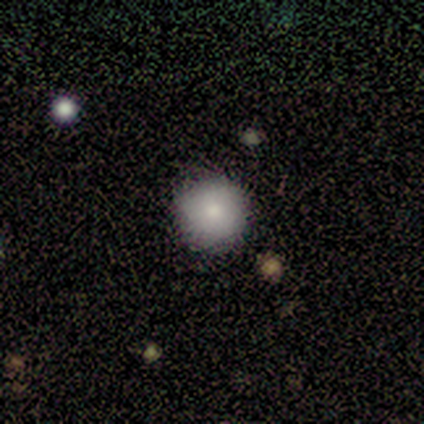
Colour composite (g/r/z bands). It shows a smooth galaxy with no disk features (75%) that is round (100%). Merging: none (100%).